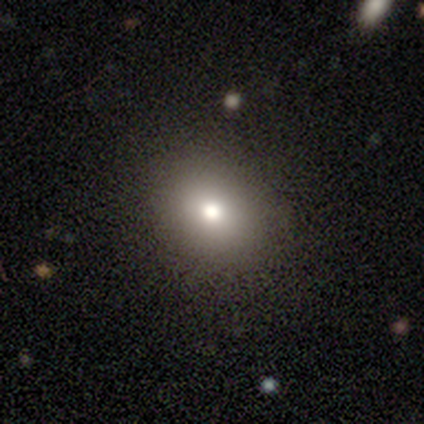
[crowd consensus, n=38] A smooth galaxy with no disk features (71%) that is round (52%). Merging: none (84%).